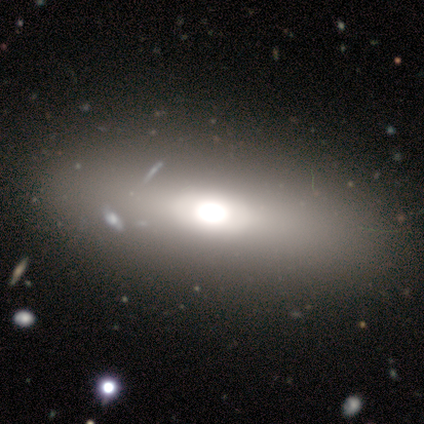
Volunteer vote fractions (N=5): Volunteers were most divided on "bulge size": large: 67%, moderate: 33%, dominant: 0%, small: 0%, none: 0%. More confident: edge-on disk — no (100%); bar — no (100%); spiral arms — no (100%); merging — none (75%); smooth or featured — featured or disk (60%).